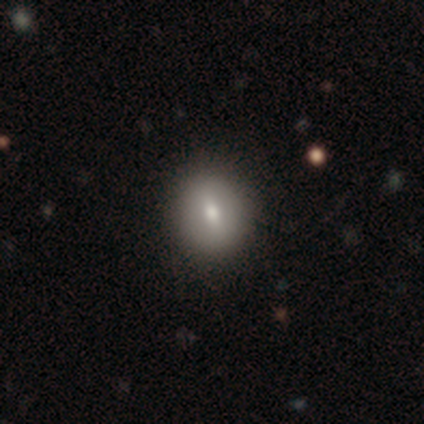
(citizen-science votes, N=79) smooth 80%, featured or disk 15%, star or artifact 5%. Down the decision tree: how rounded — round (62%); merging — none (45%).